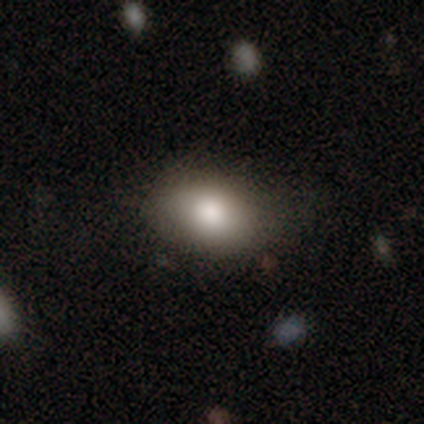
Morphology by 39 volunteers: type=smooth (90%); roundness=in between (89%); merging=none (68%).